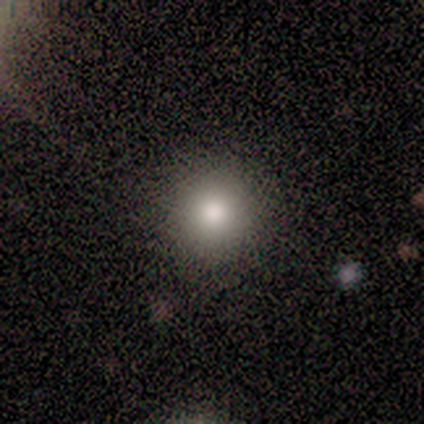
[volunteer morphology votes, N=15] smooth-or-featured: smooth: 87% | star or artifact: 13% | featured or disk: 0%
  how-rounded: round: 100% | in between: 0% | cigar-shaped: 0%
  merging: none: 92% | minor disturbance: 8% | major disturbance: 0% | merger: 0%